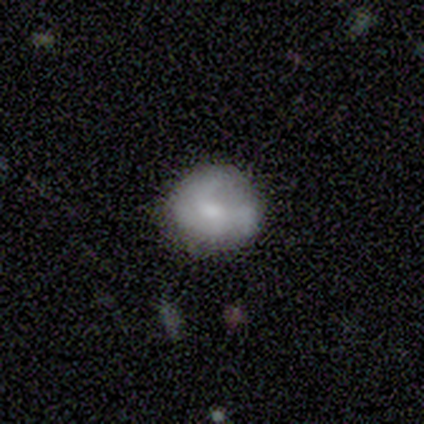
This is possibly a smooth galaxy (55%). How rounded: clearly round (83%). Merging: possibly none (50%).